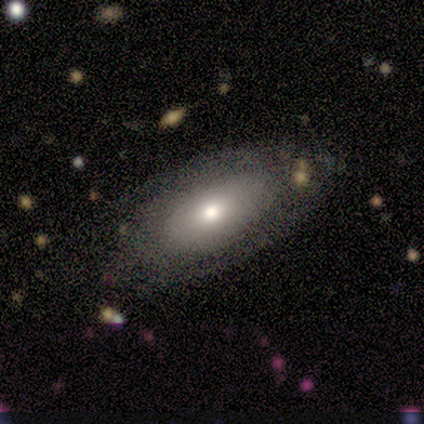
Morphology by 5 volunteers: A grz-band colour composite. It shows a smooth galaxy with no disk features (60%) that is in between round and cigar-shaped (67%). Merging: none (75%).